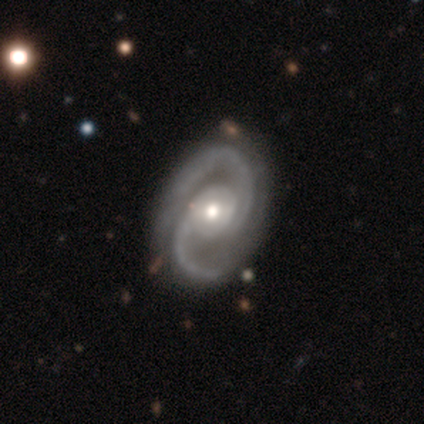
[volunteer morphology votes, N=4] Smooth or featured?
  - featured or disk: 75% *
  - star or artifact: 25%
  - smooth: 0%
Edge-on disk?
  - no: 100% *
  - yes: 0%
Bar?
  - weak: 67% *
  - no: 33%
  - strong: 0%
Spiral arms?
  - yes: 100% *
  - no: 0%
Spiral winding?
  - medium: 100% *
  - tight: 0%
  - loose: 0%
Spiral arm count?
  - 2: 100% *
  - 1: 0%
  - 3: 0%
  - 4: 0%
  - more than 4: 0%
  - can't tell: 0%
Bulge size?
  - moderate: 67% *
  - small: 33%
  - dominant: 0%
  - large: 0%
  - none: 0%
Merging?
  - none: 67% *
  - minor disturbance: 33%
  - major disturbance: 0%
  - merger: 0%